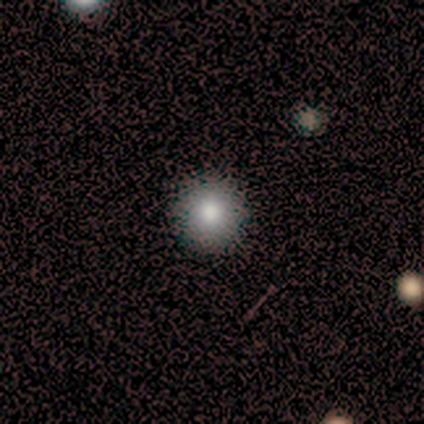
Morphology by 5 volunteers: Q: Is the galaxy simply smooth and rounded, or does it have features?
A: smooth — 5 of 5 (100%).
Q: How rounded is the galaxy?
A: round — 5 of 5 (100%).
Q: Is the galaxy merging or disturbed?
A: none — 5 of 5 (100%).